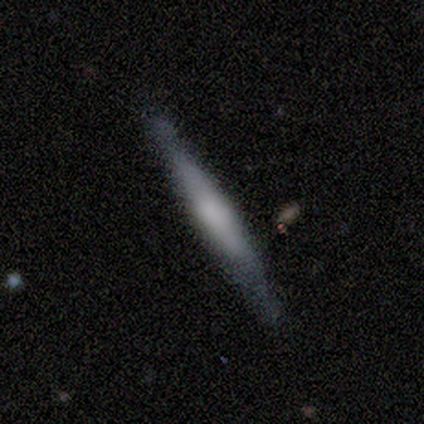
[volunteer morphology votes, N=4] Volunteers were most divided on "edge-on bulge" (3-way tie): boxy: 33%, none: 33%, rounded: 33%. More confident: edge-on disk — yes (100%); smooth or featured — featured or disk (75%); merging — none (75%).